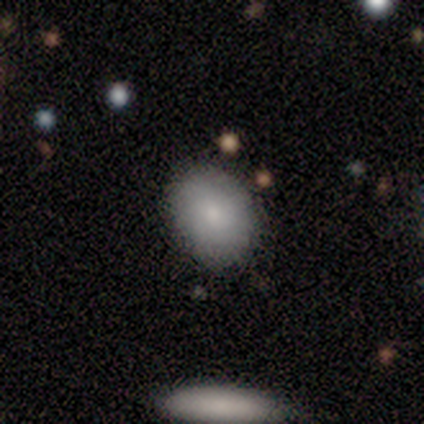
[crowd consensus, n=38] A smooth galaxy with no disk features (84%) that is in between round and cigar-shaped (69%). Merging: none (84%).